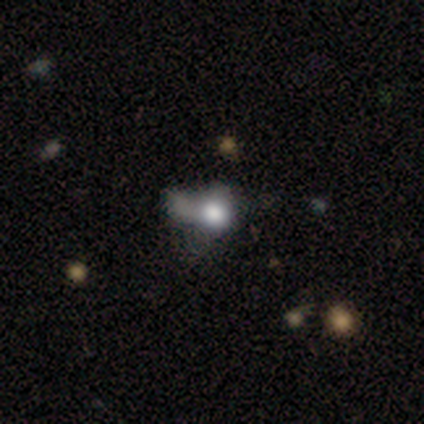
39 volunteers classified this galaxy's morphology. smooth-or-featured: smooth: 59% | featured or disk: 23% | star or artifact: 18%
  how-rounded: in between: 61% | round: 39% | cigar-shaped: 0%
  merging: major disturbance: 38% | minor disturbance: 28% | merger: 19% | none: 16%